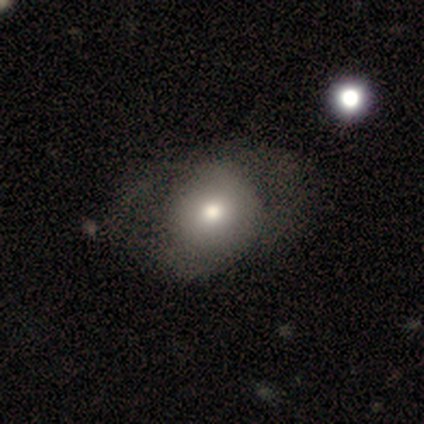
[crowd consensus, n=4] Volunteers were most divided on "merging" (3-way tie): none: 33%, minor disturbance: 33%, merger: 33%, major disturbance: 0%. More confident: how rounded — round (100%); smooth or featured — smooth (50%).